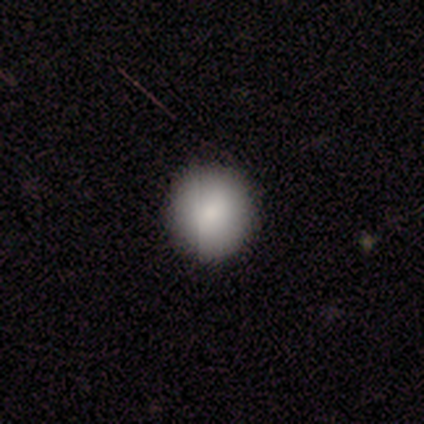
Smooth or featured? smooth (79%)
How rounded? round (97%)
Merging? none (94%)